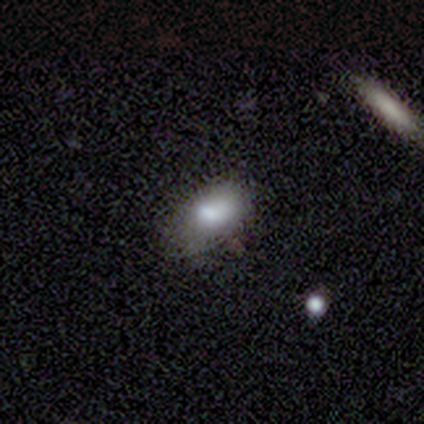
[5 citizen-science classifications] Morphology: type=smooth (80%); roundness=in between (75%); merging=none (100%).